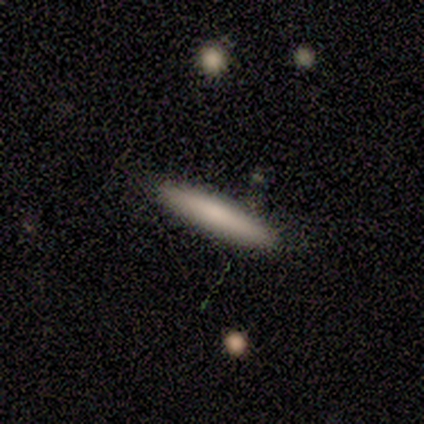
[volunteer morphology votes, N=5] smooth-or-featured: smooth: 80% | star or artifact: 20% | featured or disk: 0%
  how-rounded: cigar-shaped: 100% | round: 0% | in between: 0%
  merging: none: 100% | minor disturbance: 0% | major disturbance: 0% | merger: 0%